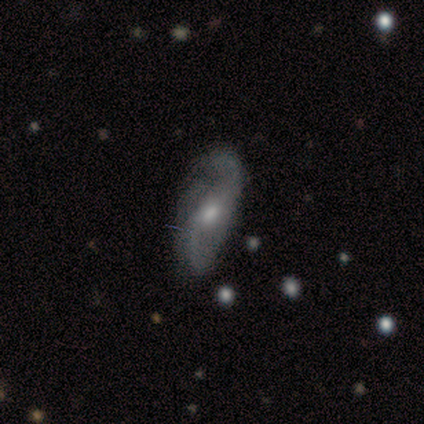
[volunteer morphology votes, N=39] Smooth or featured: featured or disk — 87% (smooth — 8%)
Edge-on disk: no — 94% (yes — 6%)
Bar: weak — 50% (tied with no — 50%)
Spiral arms: yes — 97% (no — 3%)
Spiral winding: loose — 65% (medium — 32%)
Spiral arm count: 2 — 87% (can't tell — 10%)
Bulge size: moderate — 72% (small — 19%)
Merging: none — 62% (minor disturbance — 24%)